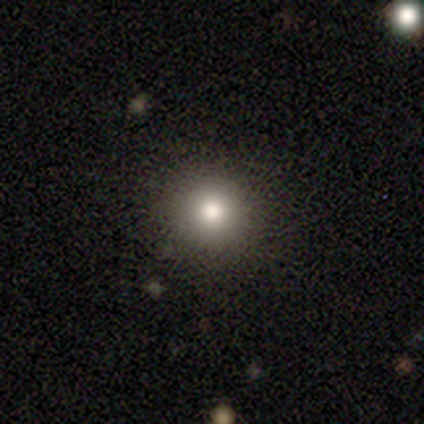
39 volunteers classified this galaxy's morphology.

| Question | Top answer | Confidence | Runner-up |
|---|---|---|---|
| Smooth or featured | smooth | 77% | star or artifact (21%) |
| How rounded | round | 97% | cigar-shaped (3%) |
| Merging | none | 94% | major disturbance (6%) |